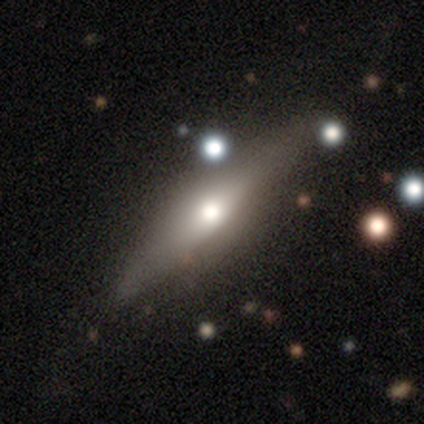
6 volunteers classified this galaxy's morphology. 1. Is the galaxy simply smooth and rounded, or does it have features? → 50% smooth (tied), 50% featured or disk (tied), 0% star or artifact.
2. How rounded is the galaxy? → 100% cigar-shaped, 0% round, 0% in between.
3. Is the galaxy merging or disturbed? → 50% none, 17% minor disturbance, 17% major disturbance, 17% merger.